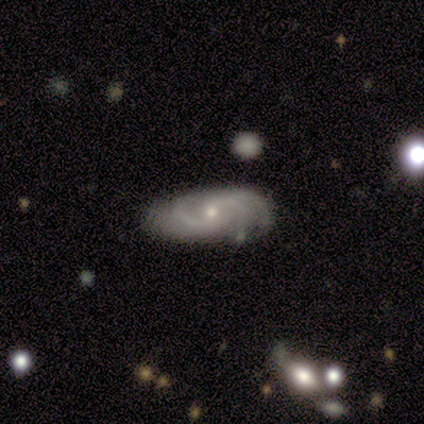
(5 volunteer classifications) Volunteers were most divided on "spiral winding" (2-way tie): medium: 40%, loose: 40%, tight: 20%. More confident: smooth or featured — featured or disk (100%); edge-on disk — no (100%); spiral arms — yes (100%); bulge size — small (100%); spiral arm count — 2 (80%); merging — none (80%); bar — weak (60%).